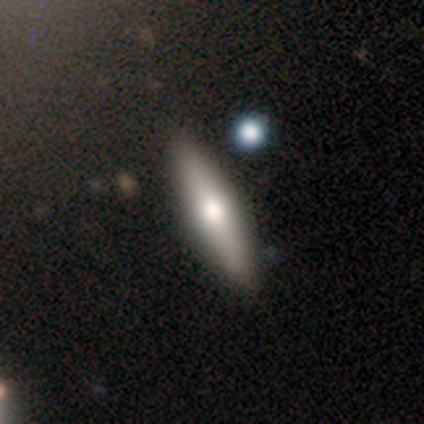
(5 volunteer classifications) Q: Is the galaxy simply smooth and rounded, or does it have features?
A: featured or disk — 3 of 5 (60%).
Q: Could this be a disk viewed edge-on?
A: yes — 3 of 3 (100%).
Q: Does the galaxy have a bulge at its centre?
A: rounded — 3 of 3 (100%).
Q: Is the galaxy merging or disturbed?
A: none — 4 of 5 (80%).